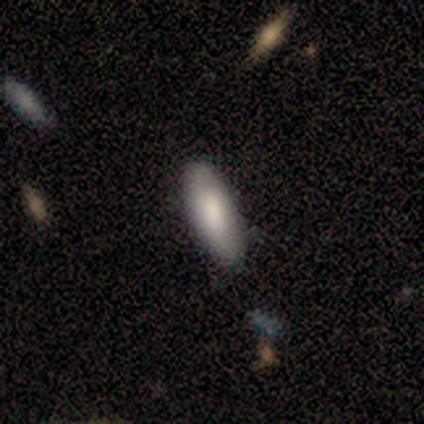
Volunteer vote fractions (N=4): Morphology: type=smooth (100%); roundness=in between (100%); merging=none (100%).